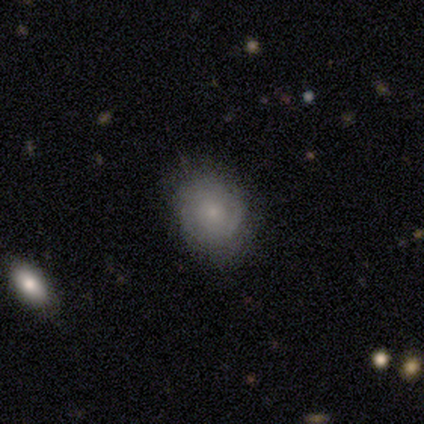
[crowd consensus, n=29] smooth 62%, featured or disk 24%, star or artifact 14%. Down the decision tree: how rounded — in between (78%); merging — none (56%).